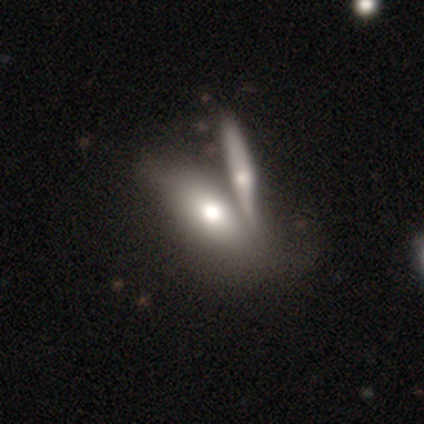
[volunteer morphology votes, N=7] Overall: featured or disk (71%). Edge-on disk: yes (60%; no 40%). Edge-on bulge: rounded (100%). Merging: merger (57%; none 29%).